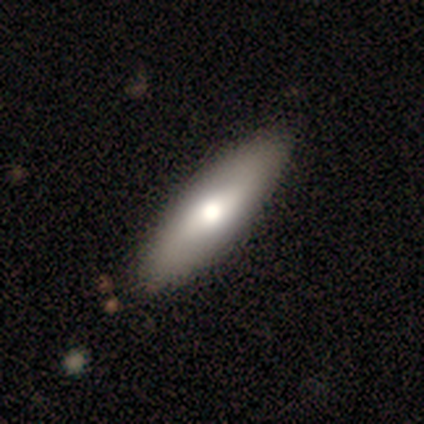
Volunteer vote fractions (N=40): smooth_or_featured: smooth (p=0.57) [alt: featured or disk p=0.35]
how_rounded: in between (p=0.65) [alt: cigar-shaped p=0.35]
merging: none (p=0.57) [alt: minor disturbance p=0.05]